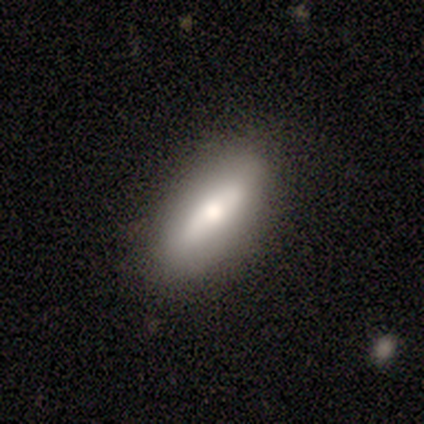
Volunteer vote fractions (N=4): A featured or disk galaxy (75%) viewed edge-on (100%) with a rounded central bulge (100%).

Vote fractions:
- Smooth or featured? featured or disk: 75% / smooth: 25% / star or artifact: 0%
- Edge-on disk? yes: 100% / no: 0%
- Edge-on bulge? rounded: 100% / boxy: 0% / none: 0%
- Merging? none: 100% / minor disturbance: 0% / major disturbance: 0% / merger: 0%